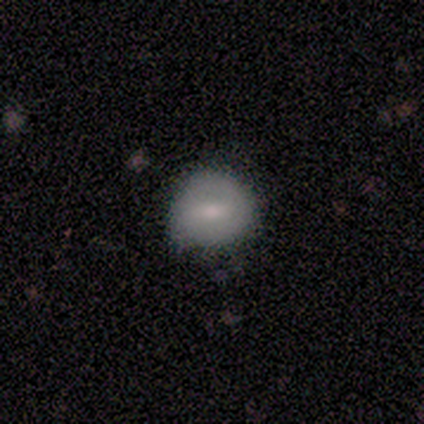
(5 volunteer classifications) Smooth or featured: smooth — 60% (featured or disk — 20%)
How rounded: round — 100%
Merging: none — 100%